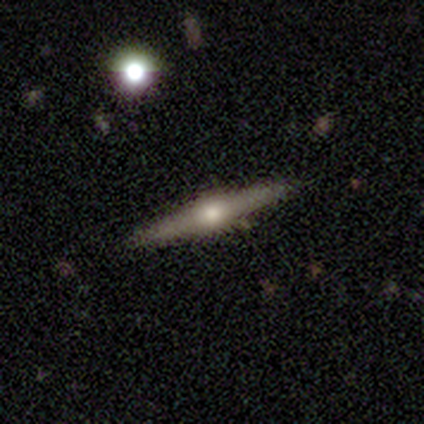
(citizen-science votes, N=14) Smooth or featured?
  - featured or disk: 79% *
  - smooth: 21%
  - star or artifact: 0%
Edge-on disk?
  - yes: 100% *
  - no: 0%
Edge-on bulge?
  - rounded: 91% *
  - boxy: 9%
  - none: 0%
Merging?
  - none: 100% *
  - minor disturbance: 0%
  - major disturbance: 0%
  - merger: 0%